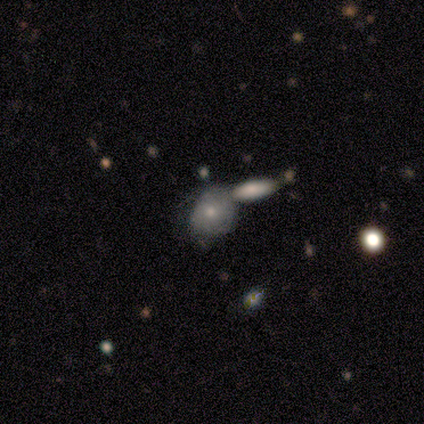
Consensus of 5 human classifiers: Morphology: type=featured or disk (80%); edge-on=no (75%); bar=no (100%); spiral arms=no (67%); bulge=small (67%); merging=merger (50%).